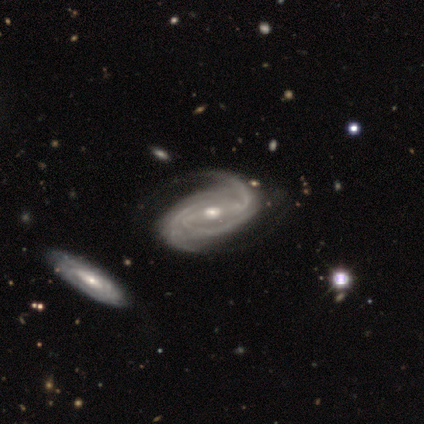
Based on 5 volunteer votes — smooth_or_featured: featured or disk (p=1.00)
disk_edge_on: no (p=1.00)
bar: strong (p=0.40) [tied with: weak p=0.40]
has_spiral_arms: yes (p=1.00)
spiral_winding: tight (p=1.00)
spiral_arm_count: 3 (p=1.00)
bulge_size: moderate (p=0.80) [alt: small p=0.20]
merging: minor disturbance (p=0.80) [alt: none p=0.20]